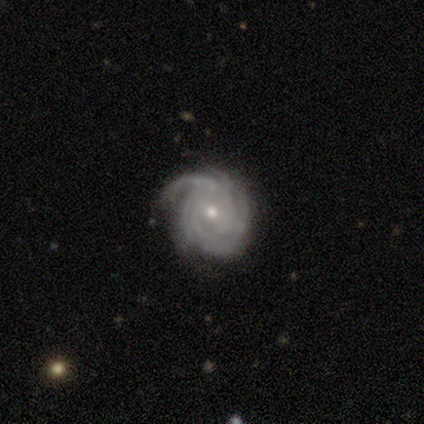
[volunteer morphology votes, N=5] smooth_or_featured: featured or disk (p=1.00)
disk_edge_on: no (p=1.00)
bar: no (p=0.60) [alt: weak p=0.40]
has_spiral_arms: yes (p=1.00)
spiral_winding: tight (p=0.80) [alt: medium p=0.20]
spiral_arm_count: can't tell (p=0.60) [alt: 4 p=0.40]
bulge_size: moderate (p=0.80) [alt: small p=0.20]
merging: minor disturbance (p=0.80) [alt: none p=0.20]